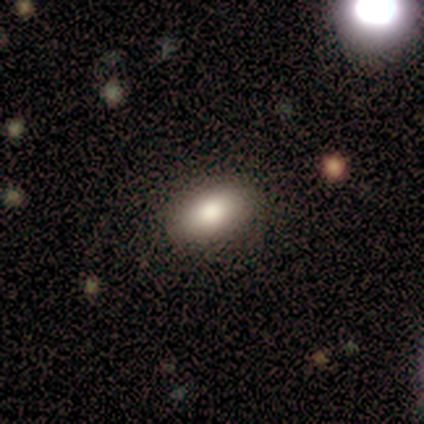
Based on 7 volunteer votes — Q: Smooth or featured?
A: smooth (71%); runner-up: featured or disk (14%)
Q: How rounded?
A: in between (100%)
Q: Merging?
A: none (67%); runner-up: minor disturbance (33%)